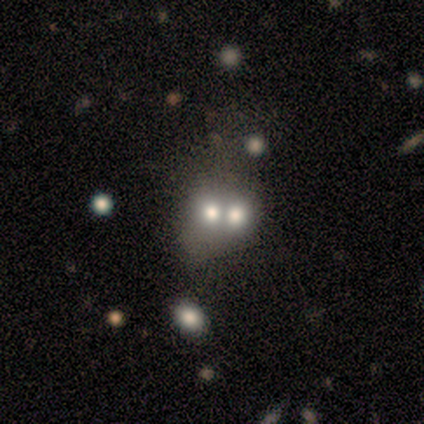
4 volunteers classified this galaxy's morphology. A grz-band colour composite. It shows a smooth galaxy with no disk features (50%) that is round (100%). Merging: merger (67%).